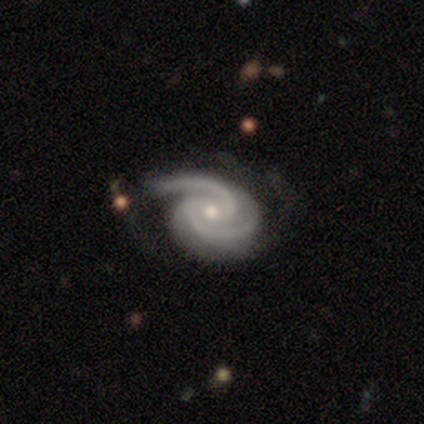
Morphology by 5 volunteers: Smooth or featured? 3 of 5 (60%) said featured or disk. Edge-on disk? 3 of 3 (100%) said no. Bar? 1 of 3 (33%, tied with weak and no) said strong. Spiral arms? 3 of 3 (100%) said yes. Spiral winding? 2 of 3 (67%) said tight. Spiral arm count? 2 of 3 (67%) said 2. Bulge size? 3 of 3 (100%) said moderate. Merging? 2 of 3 (67%) said none.